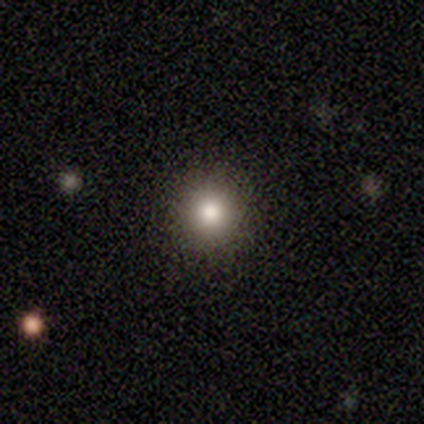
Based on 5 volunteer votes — Volunteers were most divided on "merging": none: 80%, minor disturbance: 20%, major disturbance: 0%, merger: 0%. More confident: smooth or featured — smooth (100%); how rounded — round (100%).